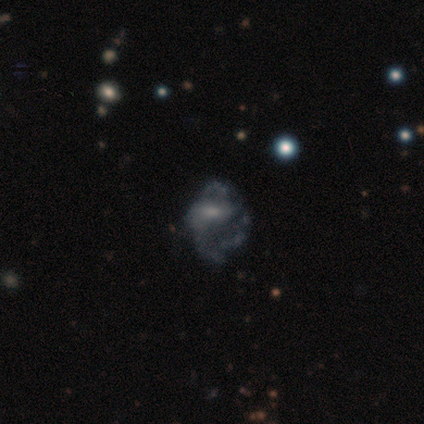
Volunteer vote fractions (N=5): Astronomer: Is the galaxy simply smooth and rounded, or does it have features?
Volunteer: featured or disk — 80%.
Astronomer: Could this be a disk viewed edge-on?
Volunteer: no — 100%.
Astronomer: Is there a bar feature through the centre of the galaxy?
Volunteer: weak — 50%, tied with no at 50%.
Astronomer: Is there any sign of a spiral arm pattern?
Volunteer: yes — 75%.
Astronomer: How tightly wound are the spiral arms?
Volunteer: loose — 67%.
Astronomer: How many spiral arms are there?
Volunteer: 2 — 33%, tied with 3 and can't tell at 33%.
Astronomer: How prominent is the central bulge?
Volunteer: moderate — 75%.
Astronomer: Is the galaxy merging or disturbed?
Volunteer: major disturbance — 50%.